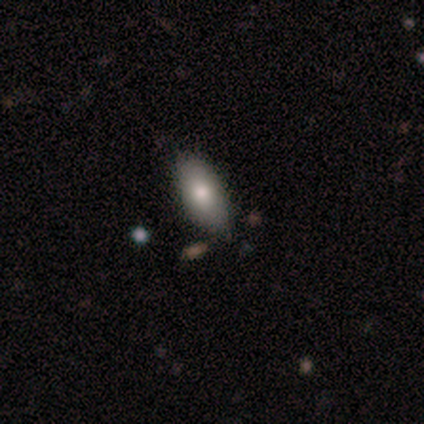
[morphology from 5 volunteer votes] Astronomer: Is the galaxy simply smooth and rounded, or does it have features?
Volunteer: smooth — 80%.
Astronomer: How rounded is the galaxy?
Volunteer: in between — 75%.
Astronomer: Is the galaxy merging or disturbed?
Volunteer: none — 60% (runner-up: minor disturbance, 40%).